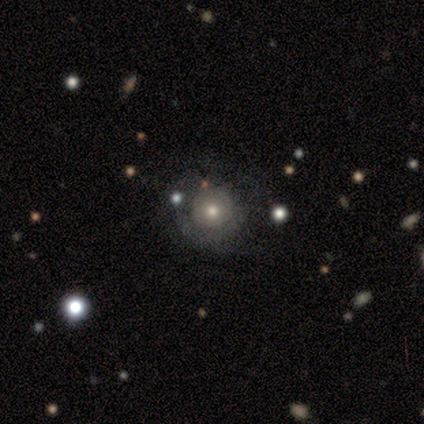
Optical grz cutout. It shows a smooth galaxy with no disk features (44%) that is round (100%). Merging: none (71%).